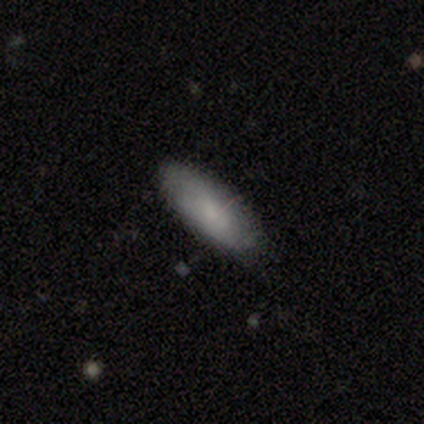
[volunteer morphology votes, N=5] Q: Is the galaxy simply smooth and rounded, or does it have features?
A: smooth — 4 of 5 (80%).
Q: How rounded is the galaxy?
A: in between — 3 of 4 (75%).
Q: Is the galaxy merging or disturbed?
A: none — 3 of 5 (60%).